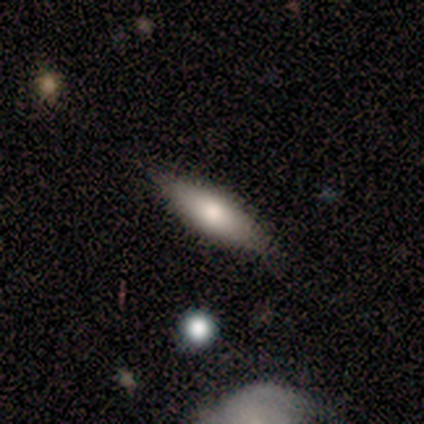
Q: Smooth or featured?
A: smooth (80%); runner-up: featured or disk (20%)
Q: How rounded?
A: in between (100%)
Q: Merging?
A: none (80%); runner-up: minor disturbance (20%)